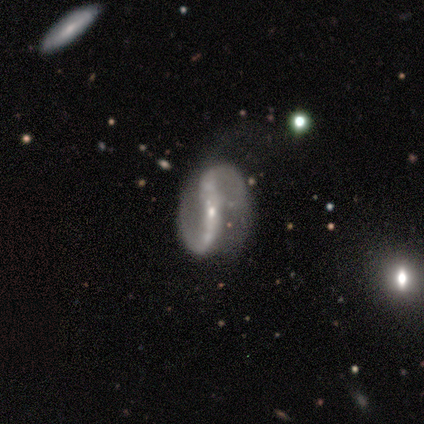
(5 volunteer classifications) Volunteers were most divided on "bar" (2-way tie): strong: 40%, weak: 40%, no: 20%. More confident: smooth or featured — featured or disk (100%); edge-on disk — no (100%); spiral arms — yes (100%); spiral arm count — 2 (100%); spiral winding — loose (80%); bulge size — small (60%); merging — none (60%).